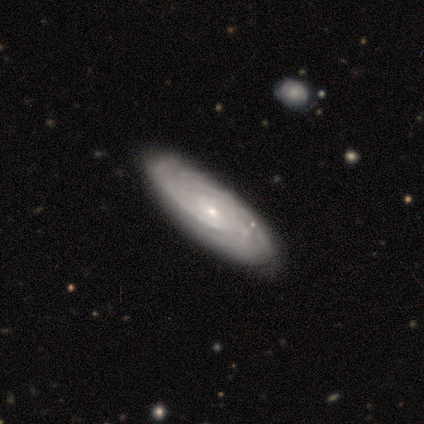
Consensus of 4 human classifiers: Q: Smooth or featured?
A: featured or disk (75%); runner-up: smooth (25%)
Q: Edge-on disk?
A: no (100%)
Q: Bar?
A: no (67%); runner-up: weak (33%)
Q: Spiral arms?
A: yes (100%)
Q: Spiral winding?
A: tight (67%); runner-up: medium (33%)
Q: Spiral arm count?
A: can't tell (67%); runner-up: 3 (33%)
Q: Bulge size?
A: small (67%); runner-up: moderate (33%)
Q: Merging?
A: none (100%)